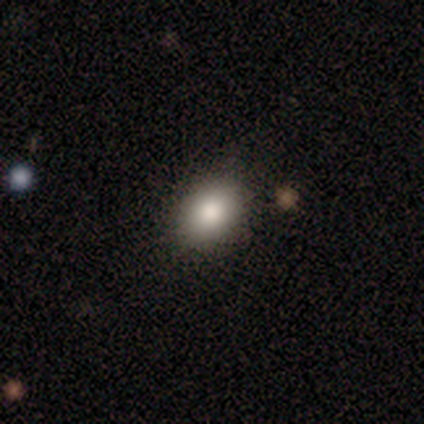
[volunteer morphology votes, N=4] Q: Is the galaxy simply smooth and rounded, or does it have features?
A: smooth — 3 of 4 (75%).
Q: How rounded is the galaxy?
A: in between — 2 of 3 (67%).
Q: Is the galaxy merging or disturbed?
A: none — 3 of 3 (100%).